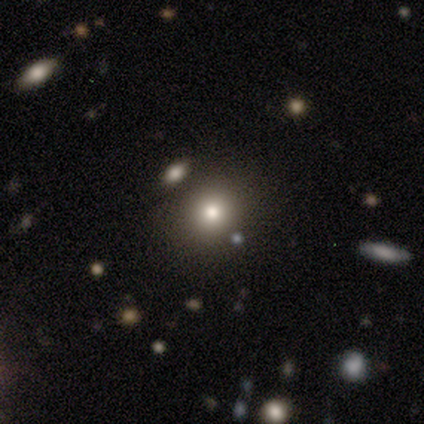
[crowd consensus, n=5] A smooth galaxy with no disk features (80%) that is round (100%).

Vote fractions:
- Smooth or featured? smooth: 80% / featured or disk: 20% / star or artifact: 0%
- How rounded? round: 100% / in between: 0% / cigar-shaped: 0%
- Merging? none: 100% / minor disturbance: 0% / major disturbance: 0% / merger: 0%